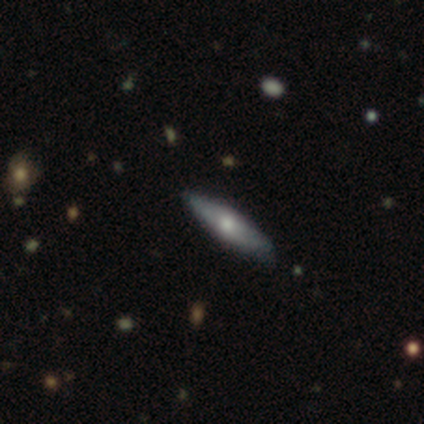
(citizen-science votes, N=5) smooth_or_featured: smooth (p=0.60) [alt: featured or disk p=0.40]
how_rounded: cigar-shaped (p=0.67) [alt: in between p=0.33]
merging: none (p=0.60) [alt: minor disturbance p=0.20]